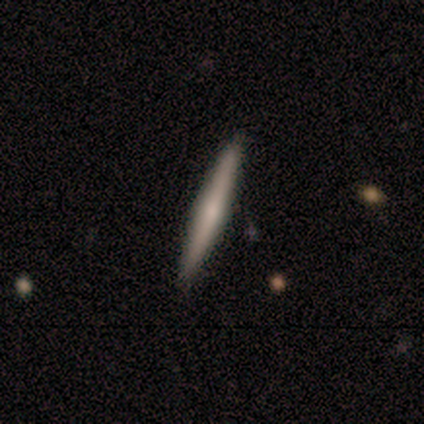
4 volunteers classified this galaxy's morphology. This is likely a featured or disk galaxy (75%). It is clearly viewed edge-on (100%). Edge-on bulge: likely rounded (67%). Merging: clearly none (100%).